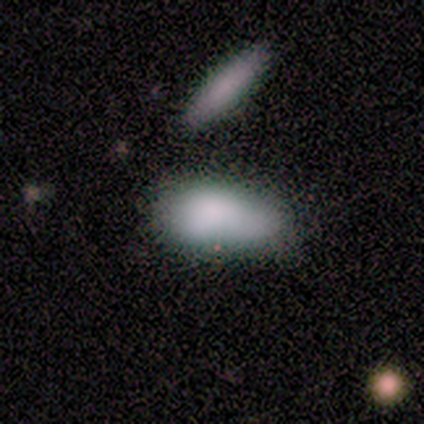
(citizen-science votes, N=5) A smooth galaxy with no disk features (80%) that is in between round and cigar-shaped (100%).

Vote fractions:
- Smooth or featured? smooth: 80% / featured or disk: 20% / star or artifact: 0%
- How rounded? in between: 100% / round: 0% / cigar-shaped: 0%
- Merging? minor disturbance: 40% / none: 20% / major disturbance: 20% / merger: 20%